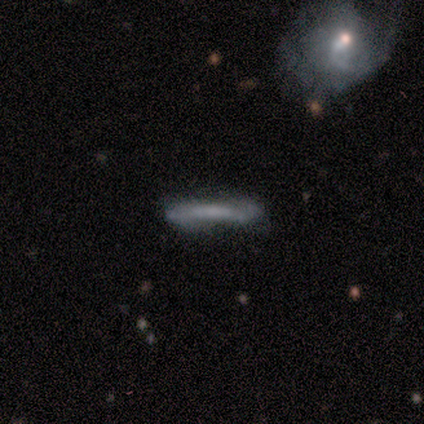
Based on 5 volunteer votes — Q: Smooth or featured?
A: featured or disk (80%); runner-up: smooth (20%)
Q: Edge-on disk?
A: yes (75%); runner-up: no (25%)
Q: Edge-on bulge?
A: none (67%); runner-up: rounded (33%)
Q: Merging?
A: none (80%); runner-up: merger (20%)